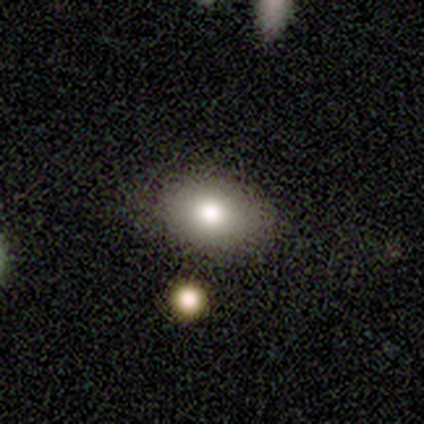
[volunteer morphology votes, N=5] Q: Smooth or featured?
A: smooth (100%)
Q: How rounded?
A: in between (60%); runner-up: round (40%)
Q: Merging?
A: none (60%); runner-up: minor disturbance (40%)